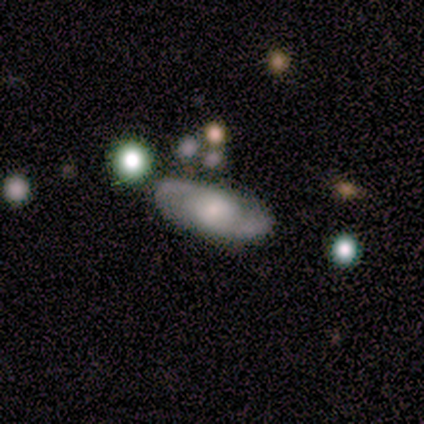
A featured or disk galaxy (60%) with no bar (67%), 2 (100%) tight (67%) spiral arms (100%) and a small central bulge (67%). Merging: none (100%).